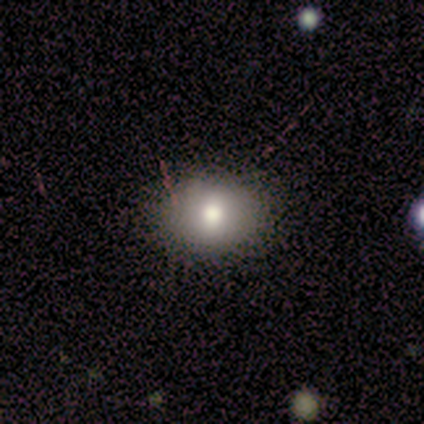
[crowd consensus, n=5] This is clearly a smooth galaxy (80%). How rounded: likely in between (75%). Merging: clearly none (100%).